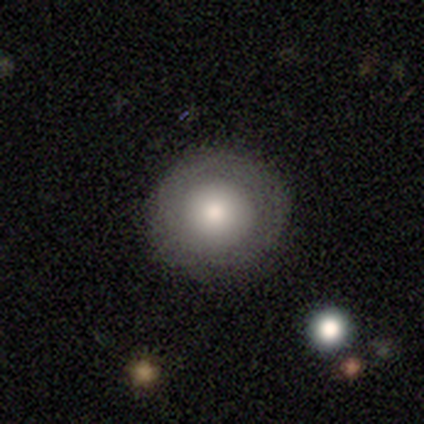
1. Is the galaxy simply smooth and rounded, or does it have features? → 100% smooth, 0% featured or disk, 0% star or artifact.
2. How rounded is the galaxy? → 100% round, 0% in between, 0% cigar-shaped.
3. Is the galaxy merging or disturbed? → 100% none, 0% minor disturbance, 0% major disturbance, 0% merger.